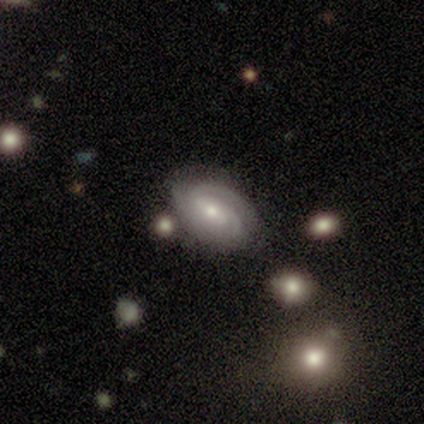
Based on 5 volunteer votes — A featured or disk galaxy (100%) with a weak bar (40%, tied with no), 2 (40%, tied with 3) tight (40%, tied with medium) spiral arms (100%) and a moderate central bulge (60%).

Vote fractions:
- Smooth or featured? featured or disk: 100% / smooth: 0% / star or artifact: 0%
- Edge-on disk? no: 100% / yes: 0%
- Bar? weak: 40% (tied) / no: 40% (tied) / strong: 20%
- Spiral arms? yes: 100% / no: 0%
- Spiral winding? tight: 40% (tied) / medium: 40% (tied) / loose: 20%
- Spiral arm count? 2: 40% (tied) / 3: 40% (tied) / can't tell: 20% / 1: 0% / 4: 0% / more than 4: 0%
- Bulge size? moderate: 60% / small: 40% / dominant: 0% / large: 0% / none: 0%
- Merging? none: 80% / minor disturbance: 20% / major disturbance: 0% / merger: 0%